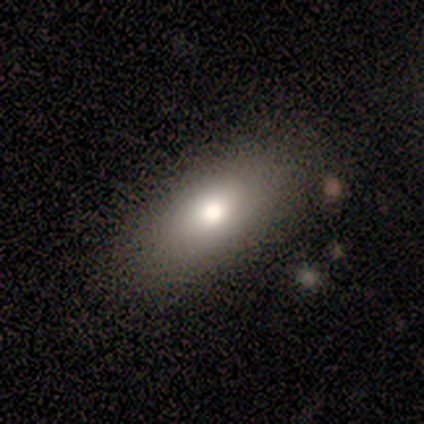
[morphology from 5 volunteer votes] A smooth galaxy with no disk features (100%) that is in between round and cigar-shaped (80%). Merging: none (100%).